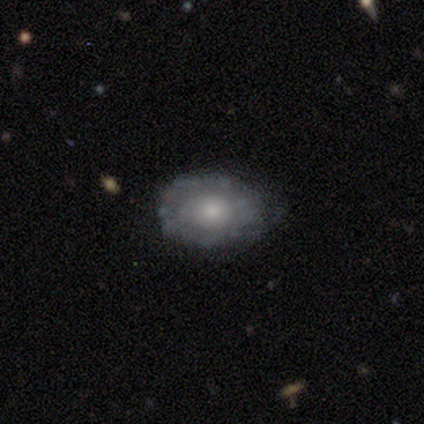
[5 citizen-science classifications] A featured or disk galaxy (60%) with no bar (100%), no spiral arms (100%) and a small central bulge (67%).

Vote fractions:
- Smooth or featured? featured or disk: 60% / smooth: 40% / star or artifact: 0%
- Edge-on disk? no: 100% / yes: 0%
- Bar? no: 100% / strong: 0% / weak: 0%
- Spiral arms? no: 100% / yes: 0%
- Bulge size? small: 67% / moderate: 33% / dominant: 0% / large: 0% / none: 0%
- Merging? none: 80% / major disturbance: 20% / minor disturbance: 0% / merger: 0%